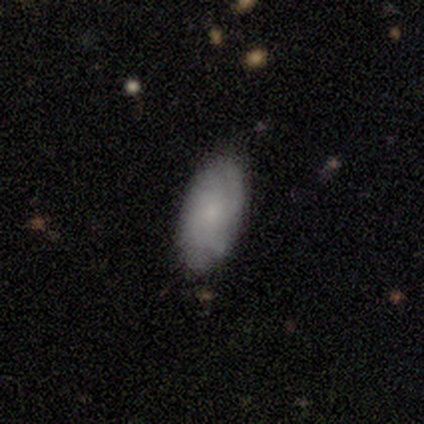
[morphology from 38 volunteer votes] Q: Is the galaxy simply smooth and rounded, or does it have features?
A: smooth — 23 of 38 (61%).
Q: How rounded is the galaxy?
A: in between — 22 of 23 (96%).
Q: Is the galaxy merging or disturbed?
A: none — 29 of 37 (78%).